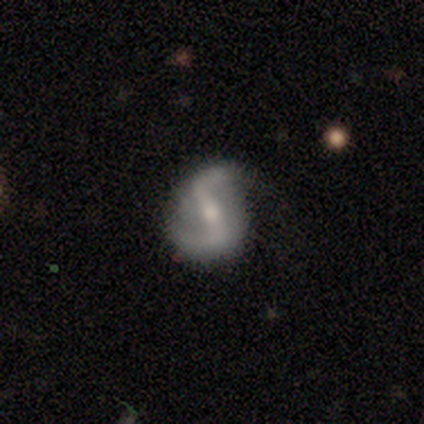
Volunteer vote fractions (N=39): This is clearly a featured or disk galaxy (85%). It is clearly not viewed edge-on (100%). Bar: likely strong (70%). Spiral arm pattern: clearly yes (91%). Spiral arm count: clearly 2 (97%). Spiral winding: likely loose (77%). Central bulge: possibly moderate (55%). Merging: likely none (65%).